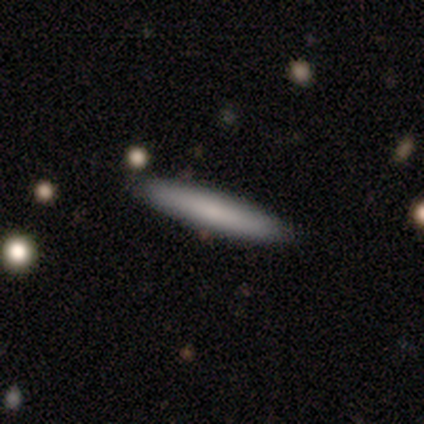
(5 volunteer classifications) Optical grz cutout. It shows a smooth galaxy with no disk features (80%) that is cigar-shaped (100%). Merging: none (80%).